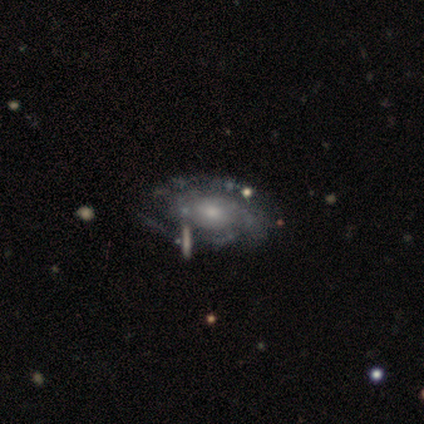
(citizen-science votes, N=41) A featured or disk galaxy (88%) with no bar (75%), 3 (33%) tight (64%) spiral arms (100%) and a small central bulge (47%).

Vote fractions:
- Smooth or featured? featured or disk: 88% / smooth: 12% / star or artifact: 0%
- Edge-on disk? no: 100% / yes: 0%
- Bar? no: 75% / weak: 25% / strong: 0%
- Spiral arms? yes: 100% / no: 0%
- Spiral winding? tight: 64% / medium: 28% / loose: 8%
- Spiral arm count? 3: 33% / can't tell: 31% / 2: 25% / 4: 8% / more than 4: 3% / 1: 0%
- Bulge size? small: 47% / moderate: 42% / large: 8% / none: 3% / dominant: 0%
- Merging? none: 44% / minor disturbance: 20% / major disturbance: 5% / merger: 5%